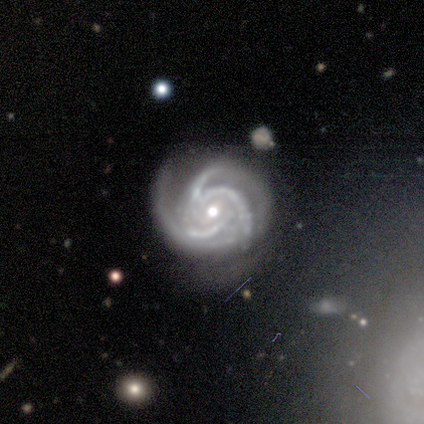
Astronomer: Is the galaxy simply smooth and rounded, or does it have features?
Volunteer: featured or disk — 100%.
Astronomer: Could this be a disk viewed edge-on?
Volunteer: no — 100%.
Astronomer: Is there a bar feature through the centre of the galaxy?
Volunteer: weak — 50%.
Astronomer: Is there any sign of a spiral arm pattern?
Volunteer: yes — 100%.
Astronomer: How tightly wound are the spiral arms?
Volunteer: medium — 50%.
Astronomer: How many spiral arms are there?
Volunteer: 3 — 100%.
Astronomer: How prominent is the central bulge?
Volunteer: moderate — 50%, tied with none at 50%.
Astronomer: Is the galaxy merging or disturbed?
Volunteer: none — 50%, tied with minor disturbance at 50%.